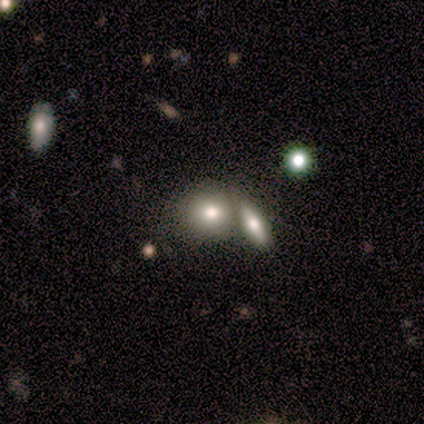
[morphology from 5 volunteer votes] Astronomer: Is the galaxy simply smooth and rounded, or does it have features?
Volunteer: smooth — 100%.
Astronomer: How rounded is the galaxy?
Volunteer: in between — 80%.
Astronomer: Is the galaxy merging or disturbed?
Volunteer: merger — 60%.